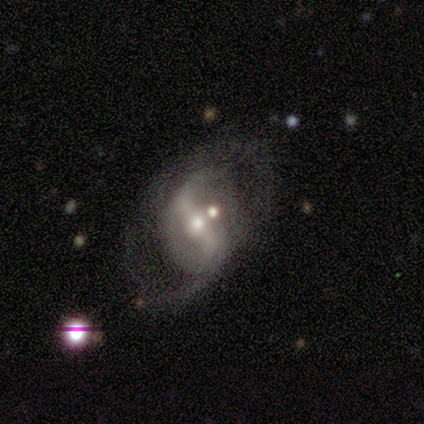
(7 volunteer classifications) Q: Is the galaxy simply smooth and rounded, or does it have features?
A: featured or disk — 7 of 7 (100%).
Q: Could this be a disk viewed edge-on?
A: no — 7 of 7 (100%).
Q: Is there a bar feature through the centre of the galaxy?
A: strong — 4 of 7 (57%).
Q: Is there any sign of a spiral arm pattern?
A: yes — 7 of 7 (100%).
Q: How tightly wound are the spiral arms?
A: loose — 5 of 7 (71%).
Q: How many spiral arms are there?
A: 2 — 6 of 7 (86%).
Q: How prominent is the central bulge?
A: moderate — 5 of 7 (71%).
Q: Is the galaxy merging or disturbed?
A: none — 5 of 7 (71%).